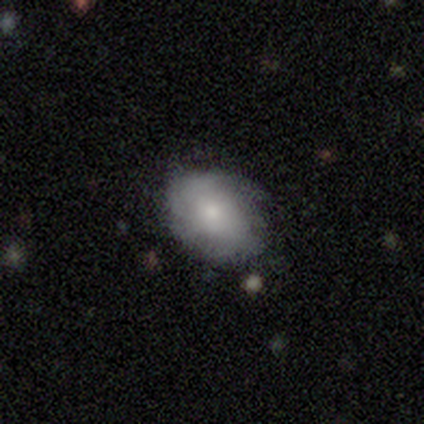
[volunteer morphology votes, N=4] A featured or disk galaxy (50%) with no bar (100%), medium (100%) spiral arms (50%, tied with no) and a moderate central bulge (100%).

Vote fractions:
- Smooth or featured? featured or disk: 50% / smooth: 25% / star or artifact: 25%
- Edge-on disk? no: 100% / yes: 0%
- Bar? no: 100% / strong: 0% / weak: 0%
- Spiral arms? yes: 50% (tied) / no: 50% (tied)
- Spiral winding? medium: 100% / tight: 0% / loose: 0%
- Spiral arm count? can't tell: 100% / 1: 0% / 2: 0% / 3: 0% / 4: 0% / more than 4: 0%
- Bulge size? moderate: 100% / dominant: 0% / large: 0% / small: 0% / none: 0%
- Merging? none: 67% / minor disturbance: 33% / major disturbance: 0% / merger: 0%